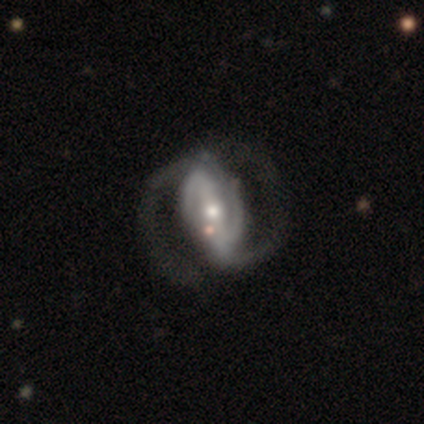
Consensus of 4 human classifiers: smooth_or_featured: featured or disk (p=1.00)
disk_edge_on: no (p=1.00)
bar: strong (p=0.75) [alt: weak p=0.25]
has_spiral_arms: yes (p=1.00)
spiral_winding: tight (p=0.75) [alt: medium p=0.25]
spiral_arm_count: 2 (p=1.00)
bulge_size: moderate (p=0.75) [alt: small p=0.25]
merging: none (p=0.75) [alt: major disturbance p=0.25]